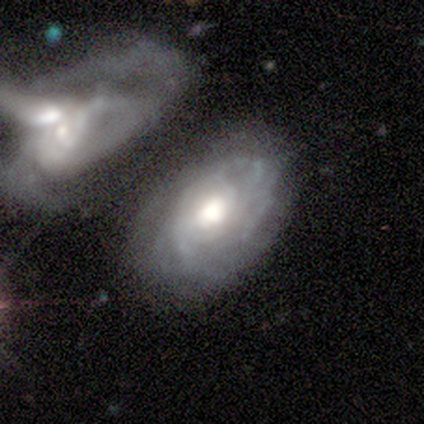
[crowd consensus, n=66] A featured or disk galaxy (85%) with no bar (85%), tight (70%) spiral arms (87%) and a moderate central bulge (47%). Merging: merger (43%).